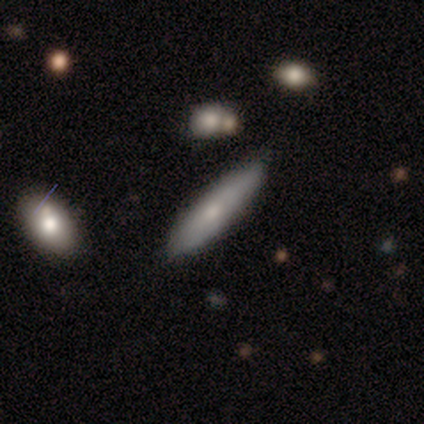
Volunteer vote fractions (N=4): smooth_or_featured: smooth (p=0.50) [tied with: featured or disk p=0.50]
how_rounded: cigar-shaped (p=1.00)
merging: none (p=0.75) [alt: minor disturbance p=0.25]